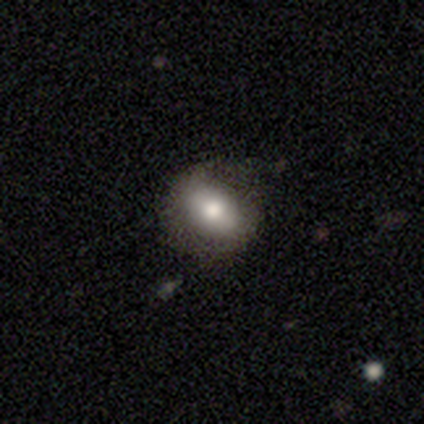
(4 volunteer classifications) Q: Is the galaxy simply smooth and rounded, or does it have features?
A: smooth — 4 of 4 (100%).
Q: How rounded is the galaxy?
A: in between — 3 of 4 (75%).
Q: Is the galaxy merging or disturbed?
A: none — 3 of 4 (75%).